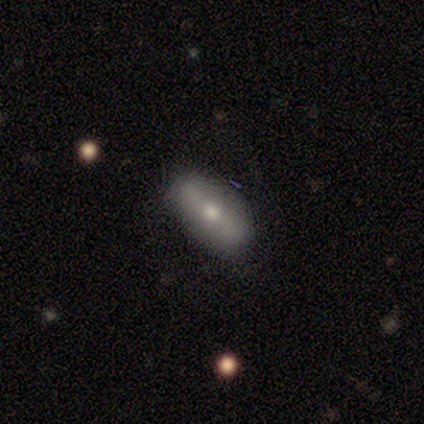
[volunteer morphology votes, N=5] Smooth or featured?
  - smooth: 80% *
  - featured or disk: 20%
  - star or artifact: 0%
How rounded?
  - in between: 75% *
  - cigar-shaped: 25%
  - round: 0%
Merging?
  - none: 100% *
  - minor disturbance: 0%
  - major disturbance: 0%
  - merger: 0%